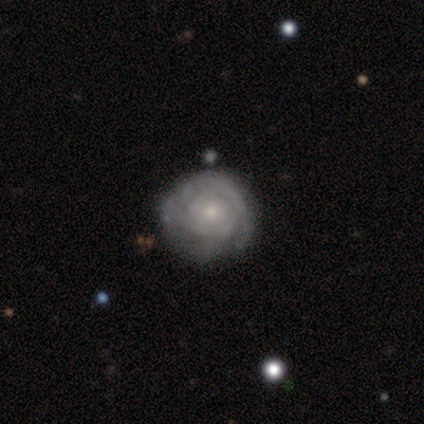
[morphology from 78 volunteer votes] This appears to be a featured or disk galaxy (88%) with no bar (81%), tight (81%) spiral arms (93%) and a small central bulge (72%). Merging: none (40%).